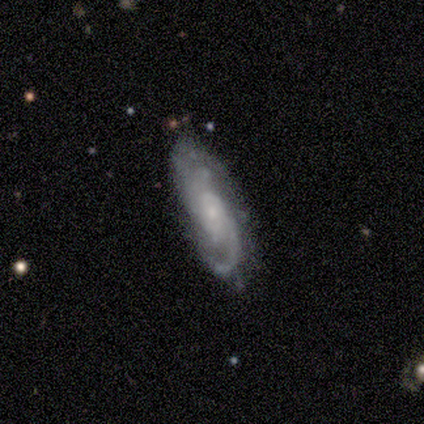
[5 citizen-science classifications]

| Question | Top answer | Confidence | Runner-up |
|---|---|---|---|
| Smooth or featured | featured or disk | 100% | — |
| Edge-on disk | no | 100% | — |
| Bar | no | 80% | weak (20%) |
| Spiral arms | yes | 100% | — |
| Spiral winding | tight | 60% | medium (20%) |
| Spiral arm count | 2 | 40% | tied: can't tell (40%) |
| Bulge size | small | 60% | none (40%) |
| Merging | none | 60% | minor disturbance (20%) |